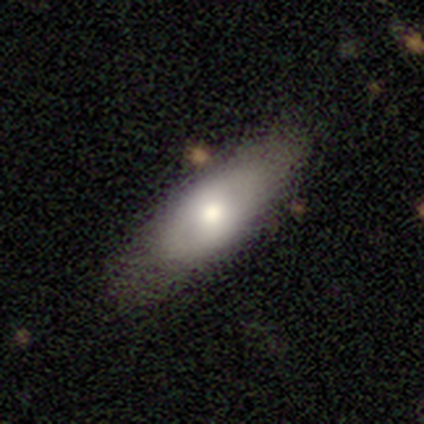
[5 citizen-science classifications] A featured or disk galaxy (80%) viewed edge-on (50%, tied with no) with a boxy central bulge (50%, tied with rounded).

Vote fractions:
- Smooth or featured? featured or disk: 80% / smooth: 20% / star or artifact: 0%
- Edge-on disk? yes: 50% (tied) / no: 50% (tied)
- Edge-on bulge? boxy: 50% (tied) / rounded: 50% (tied) / none: 0%
- Merging? none: 60% / minor disturbance: 20% / major disturbance: 20% / merger: 0%